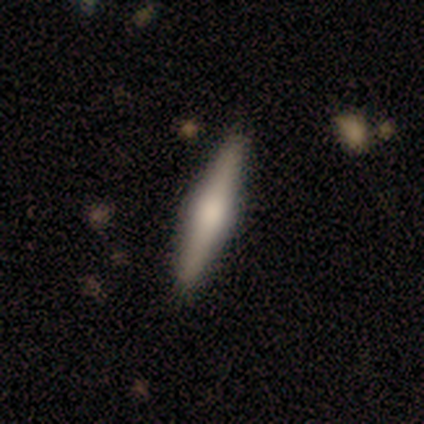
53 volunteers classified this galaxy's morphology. This is likely a featured or disk galaxy (62%). It is clearly viewed edge-on (100%). Edge-on bulge: clearly rounded (88%). Merging: clearly none (89%).